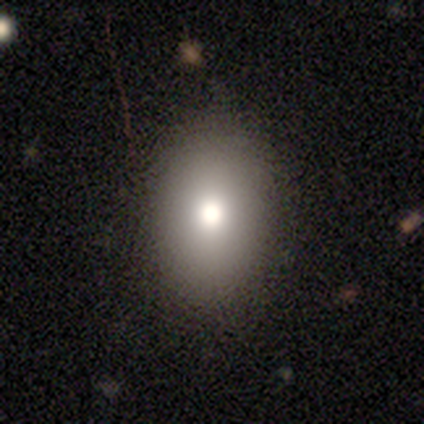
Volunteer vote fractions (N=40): smooth 78%, featured or disk 15%, star or artifact 8%. Down the decision tree: how rounded — in between (87%); merging — none (89%).